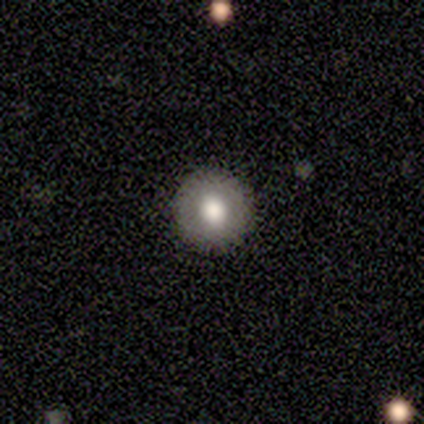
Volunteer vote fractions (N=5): smooth-or-featured: smooth: 80% | featured or disk: 20% | star or artifact: 0%
  how-rounded: round: 100% | in between: 0% | cigar-shaped: 0%
  merging: none: 80% | major disturbance: 20% | minor disturbance: 0% | merger: 0%